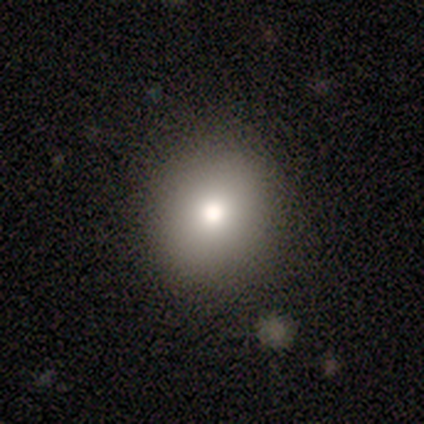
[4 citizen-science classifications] smooth_or_featured: smooth (p=1.00)
how_rounded: round (p=1.00)
merging: none (p=1.00)